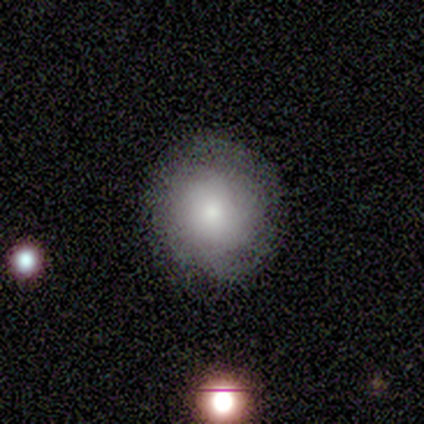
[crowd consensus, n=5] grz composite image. It shows a smooth galaxy with no disk features (80%) that is round (100%). Merging: none (80%).